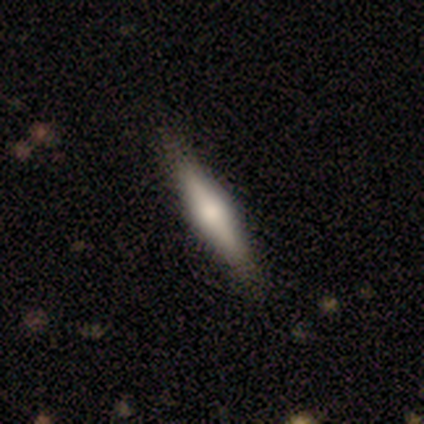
Smooth or featured? featured or disk (58%)
Edge-on disk? yes (100%)
Edge-on bulge? rounded (82%)
Merging? none (74%)